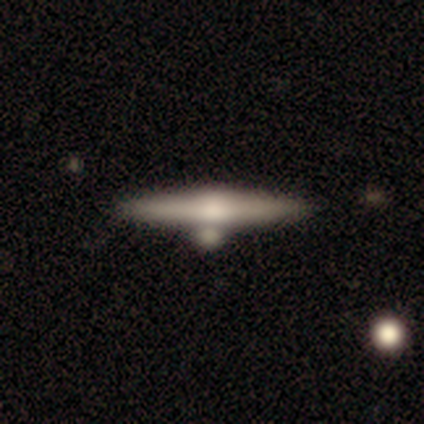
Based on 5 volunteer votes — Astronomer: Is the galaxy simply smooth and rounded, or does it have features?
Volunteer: featured or disk — 60% (runner-up: smooth, 40%).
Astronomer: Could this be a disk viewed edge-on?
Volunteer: yes — 100%.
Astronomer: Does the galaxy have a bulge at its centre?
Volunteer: rounded — 67%.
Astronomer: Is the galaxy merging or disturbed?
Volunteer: none — 100%.